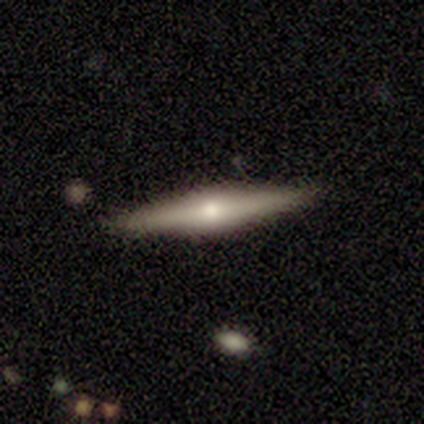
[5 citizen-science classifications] This is clearly a featured or disk galaxy (80%). It is likely viewed edge-on (75%). Edge-on bulge: clearly rounded (100%). Merging: clearly none (80%).